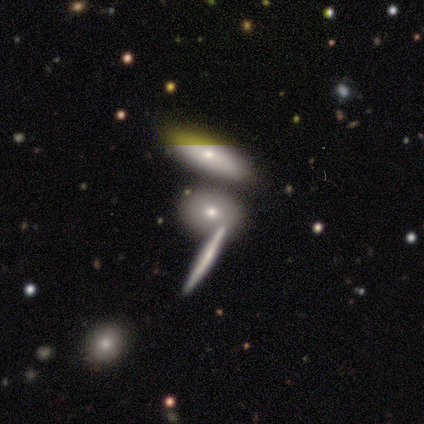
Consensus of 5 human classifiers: smooth-or-featured: featured or disk: 60% | smooth: 20% | star or artifact: 20%
  disk-edge-on: yes: 100% | no: 0%
    edge-on-bulge: none: 67% | rounded: 33% | boxy: 0%
  merging: none: 100% | minor disturbance: 0% | major disturbance: 0% | merger: 0%